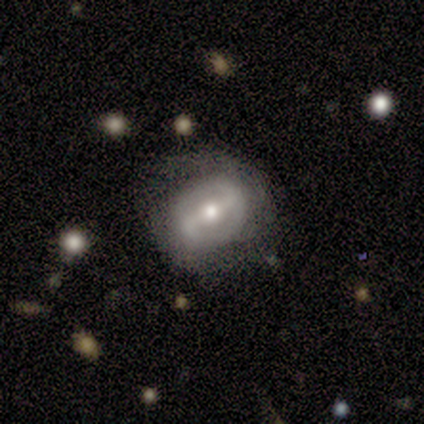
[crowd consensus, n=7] featured or disk 100%, smooth 0%, star or artifact 0%. Down the decision tree: edge-on disk — no (100%); bar — strong (43%); spiral arms — yes (86%); spiral arm count — 2 (83%); spiral winding — medium (67%); bulge size — moderate (86%); merging — none (71%).